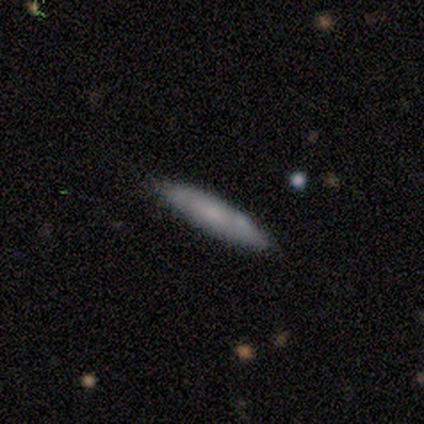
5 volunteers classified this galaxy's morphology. smooth 60%, featured or disk 20%, star or artifact 20%. Down the decision tree: how rounded — cigar-shaped (100%); merging — none (100%).